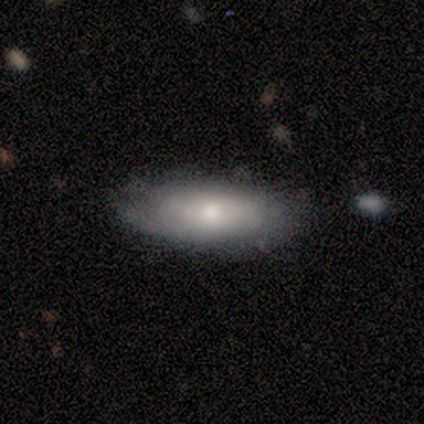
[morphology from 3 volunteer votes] A smooth galaxy with no disk features (100%) that is in between round and cigar-shaped (67%).

Vote fractions:
- Smooth or featured? smooth: 100% / featured or disk: 0% / star or artifact: 0%
- How rounded? in between: 67% / cigar-shaped: 33% / round: 0%
- Merging? none: 67% / minor disturbance: 33% / major disturbance: 0% / merger: 0%